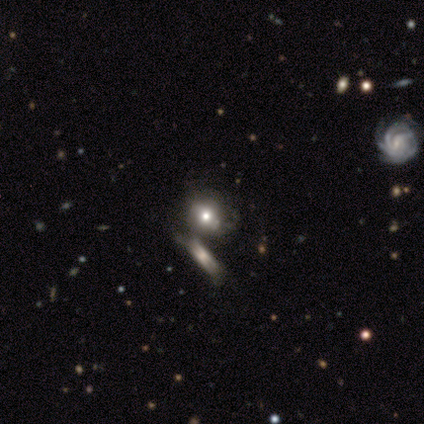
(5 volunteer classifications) star or artifact 60%, smooth 40%, featured or disk 0%.